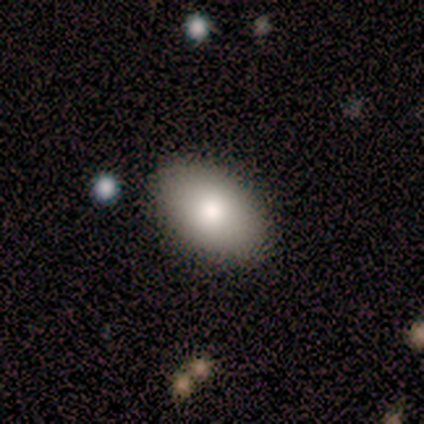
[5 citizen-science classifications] Smooth or featured: smooth — 100%
How rounded: in between — 80% (round — 20%)
Merging: none — 100%